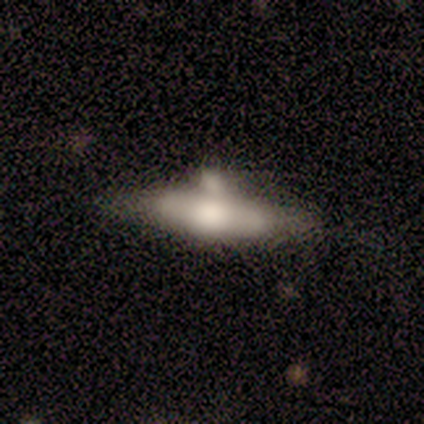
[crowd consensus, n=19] A smooth galaxy with no disk features (63%) that is cigar-shaped (75%).

Vote fractions:
- Smooth or featured? smooth: 63% / featured or disk: 32% / star or artifact: 5%
- How rounded? cigar-shaped: 75% / in between: 25% / round: 0%
- Merging? none: 39% / minor disturbance: 33% / merger: 17% / major disturbance: 11%